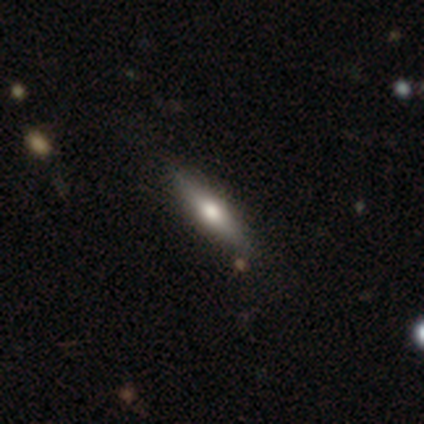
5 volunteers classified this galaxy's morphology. smooth 60%, featured or disk 20%, star or artifact 20%. Down the decision tree: how rounded — cigar-shaped (67%); merging — none (75%).